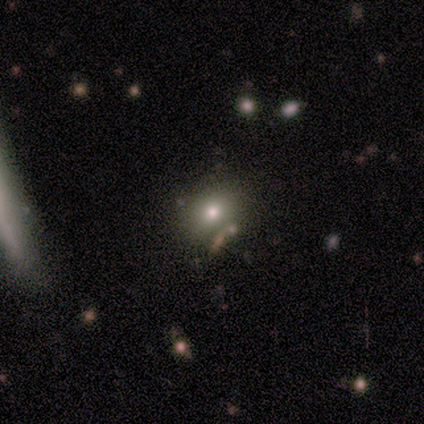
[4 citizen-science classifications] A smooth galaxy with no disk features (75%) that is round (100%).

Vote fractions:
- Smooth or featured? smooth: 75% / star or artifact: 25% / featured or disk: 0%
- How rounded? round: 100% / in between: 0% / cigar-shaped: 0%
- Merging? none: 100% / minor disturbance: 0% / major disturbance: 0% / merger: 0%